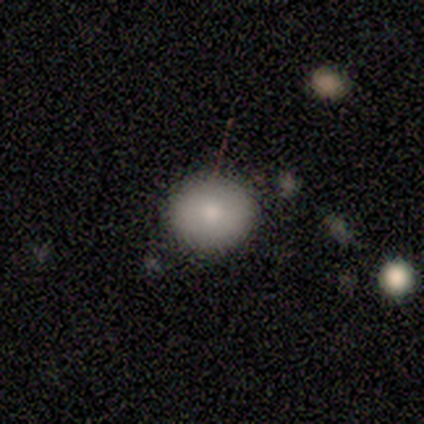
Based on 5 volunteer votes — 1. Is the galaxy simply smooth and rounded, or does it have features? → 80% smooth, 20% featured or disk, 0% star or artifact.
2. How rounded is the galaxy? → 75% round, 25% in between, 0% cigar-shaped.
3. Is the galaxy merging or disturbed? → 80% none, 20% merger, 0% minor disturbance, 0% major disturbance.